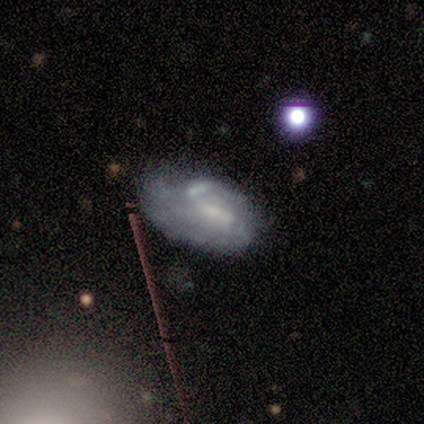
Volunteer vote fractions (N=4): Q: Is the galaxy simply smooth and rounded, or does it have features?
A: featured or disk — 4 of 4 (100%).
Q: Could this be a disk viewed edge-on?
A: no — 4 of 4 (100%).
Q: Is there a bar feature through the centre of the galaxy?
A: no — 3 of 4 (75%).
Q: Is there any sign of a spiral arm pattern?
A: yes — 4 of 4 (100%).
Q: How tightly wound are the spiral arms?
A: tight — 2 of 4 (50%).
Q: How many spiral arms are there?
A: can't tell — 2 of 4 (50%).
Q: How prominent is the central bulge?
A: moderate — 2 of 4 (50%, tied with small).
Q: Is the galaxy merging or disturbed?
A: none — 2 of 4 (50%, tied with minor disturbance).